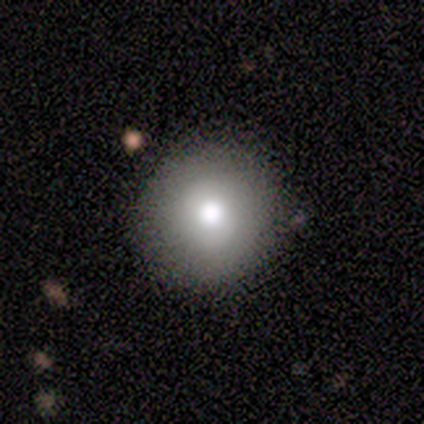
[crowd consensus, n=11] smooth-or-featured: smooth: 82% | star or artifact: 18% | featured or disk: 0%
  how-rounded: round: 100% | in between: 0% | cigar-shaped: 0%
  merging: none: 89% | minor disturbance: 11% | major disturbance: 0% | merger: 0%